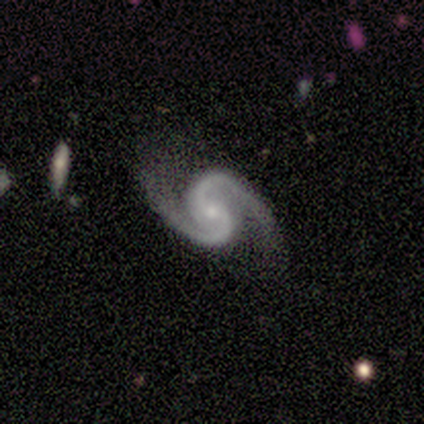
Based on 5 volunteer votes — Morphology: type=featured or disk (100%); edge-on=no (100%); bar=weak (40%, tied with no); spiral arms=yes (100%); winding=tight (40%, tied with medium); arm count=2 (100%); bulge=small (100%); merging=none (80%).